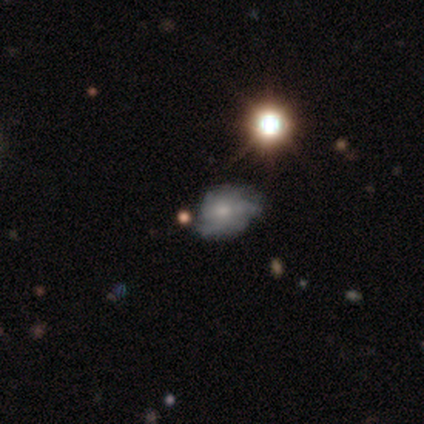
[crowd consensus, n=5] Smooth or featured?
  - featured or disk: 60% *
  - smooth: 40%
  - star or artifact: 0%
Edge-on disk?
  - no: 100% *
  - yes: 0%
Bar?
  - no: 100% *
  - strong: 0%
  - weak: 0%
Spiral arms?
  - no: 100% *
  - yes: 0%
Bulge size?
  - small: 100% *
  - dominant: 0%
  - large: 0%
  - moderate: 0%
  - none: 0%
Merging?
  - minor disturbance: 80% *
  - none: 20%
  - major disturbance: 0%
  - merger: 0%